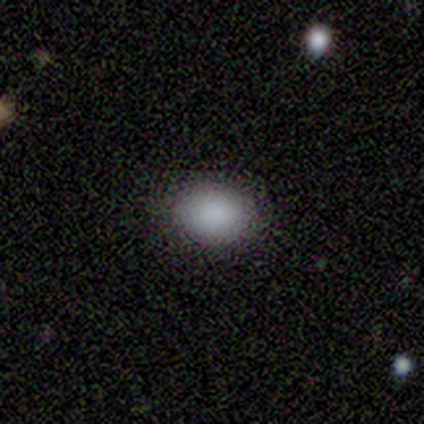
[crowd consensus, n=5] Smooth or featured?
  - smooth: 100% *
  - featured or disk: 0%
  - star or artifact: 0%
How rounded?
  - in between: 60% *
  - round: 40%
  - cigar-shaped: 0%
Merging?
  - none: 100% *
  - minor disturbance: 0%
  - major disturbance: 0%
  - merger: 0%